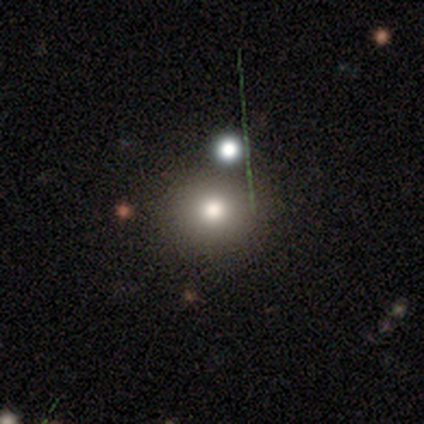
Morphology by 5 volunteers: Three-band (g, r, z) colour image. It shows a smooth galaxy with no disk features (100%) that is round (100%). Merging: none (80%).